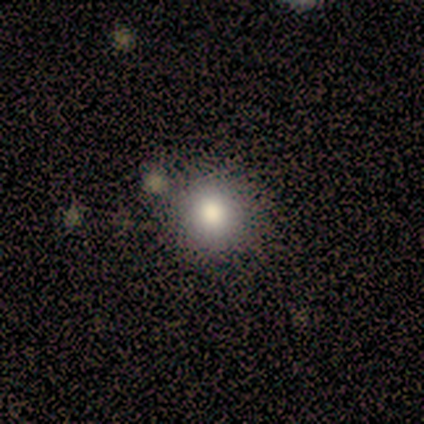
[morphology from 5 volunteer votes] type=featured or disk (60%); edge-on=no (100%); bar=no (100%); spiral arms=no (100%); bulge=moderate (67%); merging=none (100%).